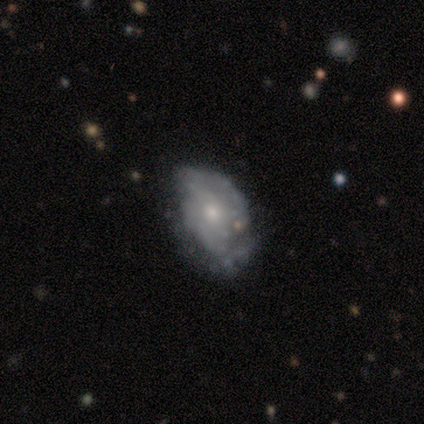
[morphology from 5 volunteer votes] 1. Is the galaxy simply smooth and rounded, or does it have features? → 60% smooth, 20% featured or disk, 20% star or artifact.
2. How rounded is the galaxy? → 100% in between, 0% round, 0% cigar-shaped.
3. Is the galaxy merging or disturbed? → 75% minor disturbance, 25% none, 0% major disturbance, 0% merger.